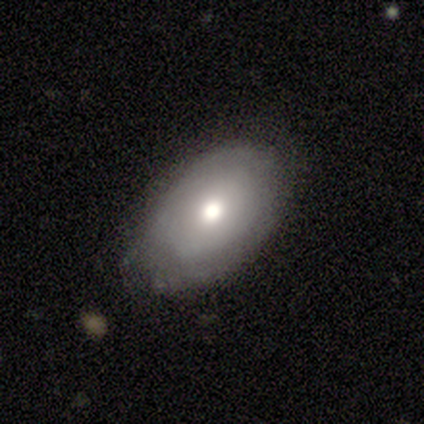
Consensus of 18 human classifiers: Smooth or featured? 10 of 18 (56%) said smooth. How rounded? 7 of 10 (70%) said in between. Merging? 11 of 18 (61%) said none.